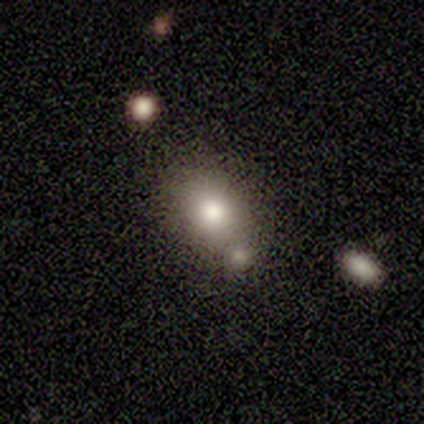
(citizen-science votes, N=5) Smooth or featured: smooth — 80% (star or artifact — 20%)
How rounded: in between — 75% (round — 25%)
Merging: none — 75% (minor disturbance — 25%)